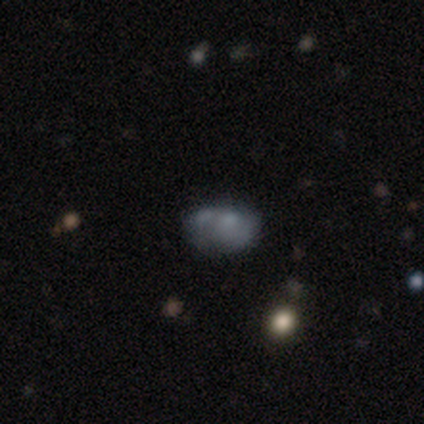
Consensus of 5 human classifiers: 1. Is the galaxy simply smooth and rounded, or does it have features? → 60% smooth, 40% featured or disk, 0% star or artifact.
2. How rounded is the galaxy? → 67% in between, 33% round, 0% cigar-shaped.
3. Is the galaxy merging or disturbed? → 40% minor disturbance (tied), 40% major disturbance (tied), 20% merger, 0% none.